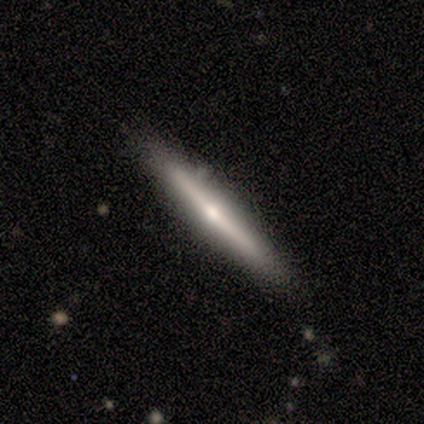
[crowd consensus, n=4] Overall: featured or disk (100%). Edge-on disk: yes (100%). Edge-on bulge: rounded (75%). Merging: none (75%).